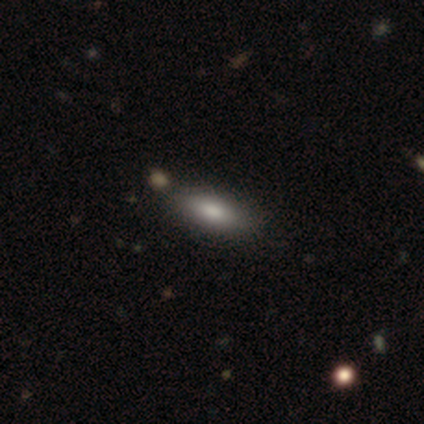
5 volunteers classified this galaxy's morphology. This is clearly a smooth galaxy (100%). How rounded: clearly in between (100%). Merging: likely none (60%).